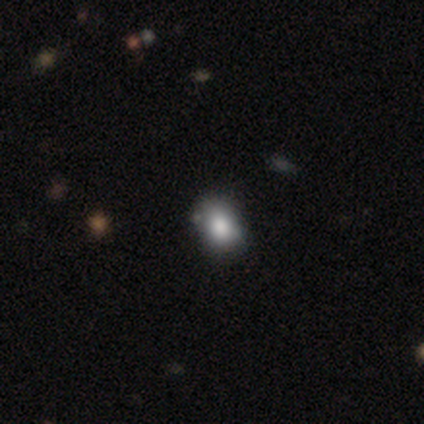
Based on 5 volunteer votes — Overall: smooth (80%). How rounded: in between (100%). Merging: none (100%).